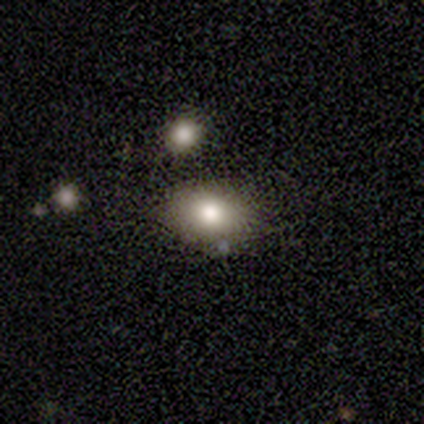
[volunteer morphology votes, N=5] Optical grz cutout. It shows a smooth galaxy with no disk features (80%) that is in between round and cigar-shaped (100%). Merging: none (75%).